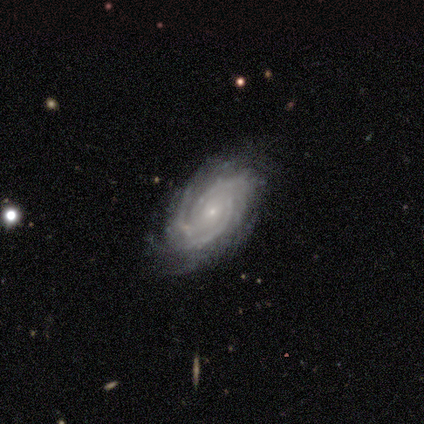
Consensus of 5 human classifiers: Q: Smooth or featured?
A: featured or disk (80%); runner-up: star or artifact (20%)
Q: Edge-on disk?
A: no (100%)
Q: Bar?
A: no (75%); runner-up: weak (25%)
Q: Spiral arms?
A: yes (100%)
Q: Spiral winding?
A: tight (100%)
Q: Spiral arm count?
A: more than 4 (50%); runner-up: 3 (25%)
Q: Bulge size?
A: small (100%)
Q: Merging?
A: none (75%); runner-up: minor disturbance (25%)